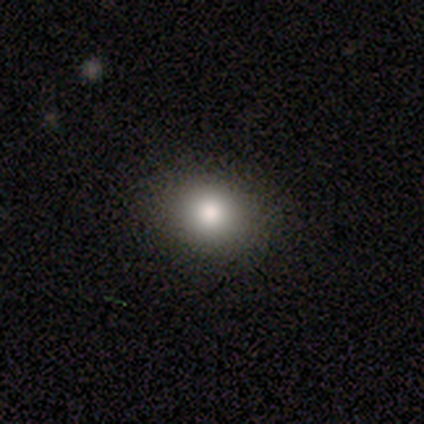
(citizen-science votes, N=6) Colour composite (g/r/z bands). It shows a smooth galaxy with no disk features (83%) that is in between round and cigar-shaped (80%). Merging: none (83%).